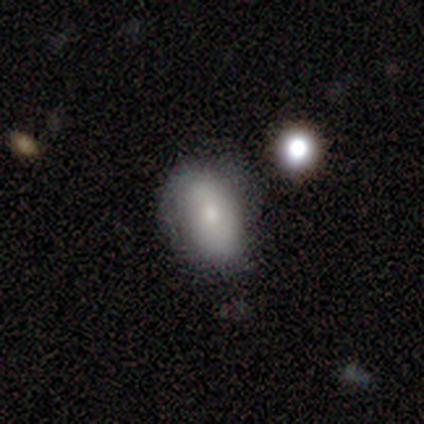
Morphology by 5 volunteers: smooth-or-featured: featured or disk: 60% | smooth: 40% | star or artifact: 0%
  disk-edge-on: no: 100% | yes: 0%
    bar: no: 100% | strong: 0% | weak: 0%
    has-spiral-arms: no: 100% | yes: 0%
    bulge-size: small: 100% | dominant: 0% | large: 0% | moderate: 0% | none: 0%
  merging: none: 60% | minor disturbance: 40% | major disturbance: 0% | merger: 0%